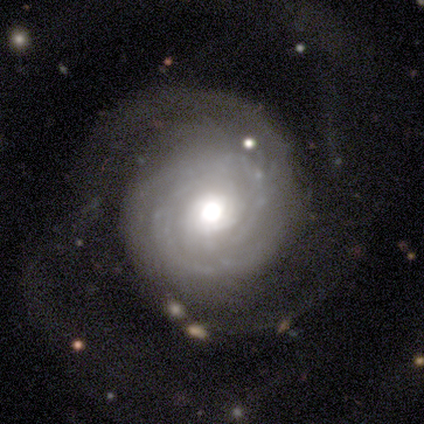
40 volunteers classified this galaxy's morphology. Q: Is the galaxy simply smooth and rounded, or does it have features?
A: featured or disk — 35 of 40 (88%).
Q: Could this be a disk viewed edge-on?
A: no — 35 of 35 (100%).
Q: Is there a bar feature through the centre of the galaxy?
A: no — 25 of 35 (71%).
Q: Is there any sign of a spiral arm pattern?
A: yes — 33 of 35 (94%).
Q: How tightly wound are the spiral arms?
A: tight — 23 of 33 (70%).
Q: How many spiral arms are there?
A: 2 — 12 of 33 (36%, tied with can't tell).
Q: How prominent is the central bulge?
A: moderate — 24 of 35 (69%).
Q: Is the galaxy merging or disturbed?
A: none — 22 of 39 (56%).